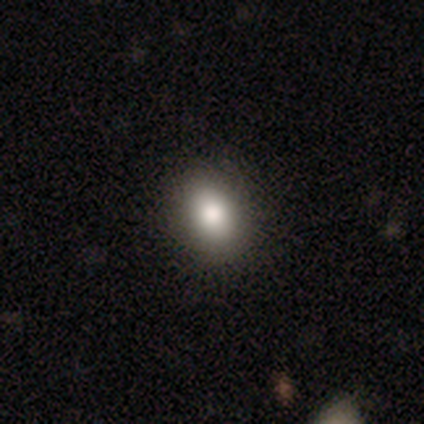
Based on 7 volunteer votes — Smooth or featured? smooth (86%)
How rounded? round (67%)
Merging? none (83%)